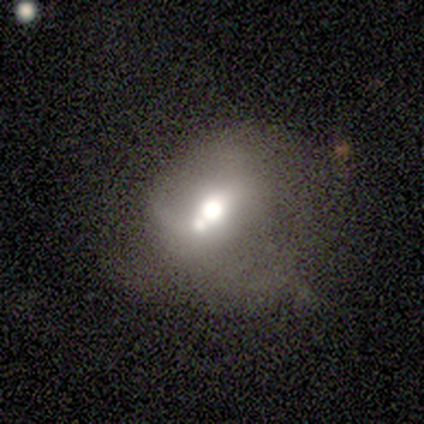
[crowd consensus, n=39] featured or disk 56%, smooth 31%, star or artifact 13%. Down the decision tree: edge-on disk — no (91%); bar — no (75%); spiral arms — no (80%); bulge size — moderate (65%); merging — merger (38%).